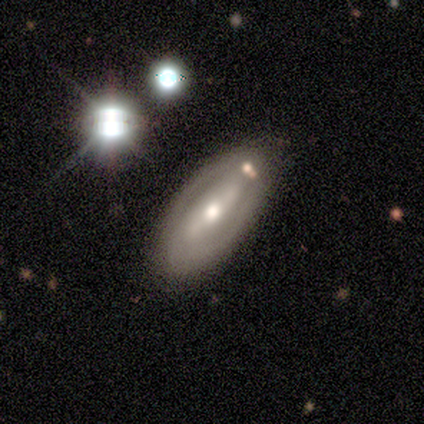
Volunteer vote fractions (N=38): Q: Smooth or featured?
A: featured or disk (71%); runner-up: smooth (16%)
Q: Edge-on disk?
A: no (89%); runner-up: yes (11%)
Q: Bar?
A: strong (58%); runner-up: weak (25%)
Q: Spiral arms?
A: yes (50%); tied with: no (50%)
Q: Spiral winding?
A: tight (50%); tied with: medium (50%)
Q: Spiral arm count?
A: 2 (75%); runner-up: can't tell (25%)
Q: Bulge size?
A: moderate (62%); runner-up: small (29%)
Q: Merging?
A: none (76%); runner-up: minor disturbance (18%)